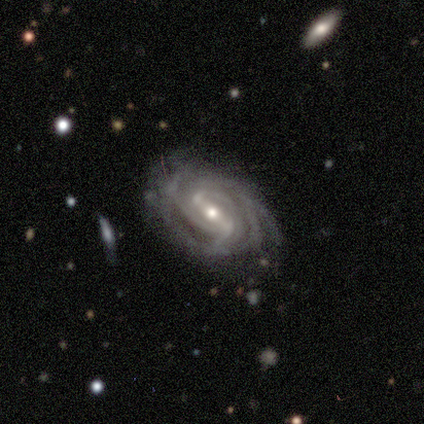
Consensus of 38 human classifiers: featured or disk 89%, smooth 8%, star or artifact 3%. Down the decision tree: edge-on disk — no (94%); bar — strong (50%); spiral arms — yes (100%); spiral arm count — can't tell (34%); spiral winding — tight (62%); bulge size — moderate (53%); merging — none (54%).